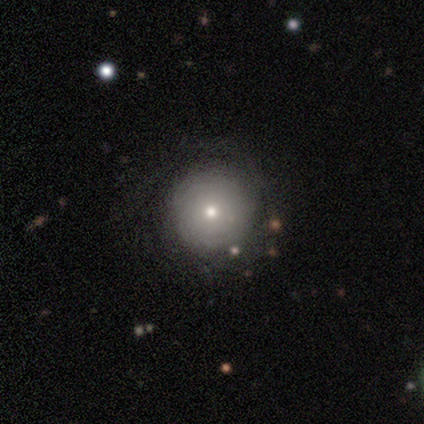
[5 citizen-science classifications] A smooth galaxy with no disk features (60%) that is round (100%). Merging: none (50%, tied with minor disturbance).